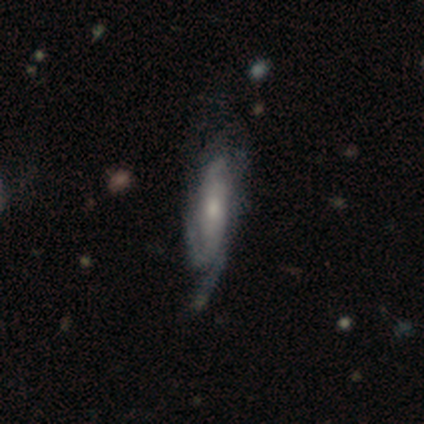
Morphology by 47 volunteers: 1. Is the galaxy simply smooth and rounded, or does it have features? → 81% featured or disk, 17% smooth, 2% star or artifact.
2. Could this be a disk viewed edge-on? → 82% no, 18% yes.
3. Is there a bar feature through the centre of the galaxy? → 58% no, 42% weak, 0% strong.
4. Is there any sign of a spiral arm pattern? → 77% yes, 23% no.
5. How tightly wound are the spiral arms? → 54% tight, 29% medium, 17% loose.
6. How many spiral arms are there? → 50% 2, 33% can't tell, 12% 3, 4% 4, 0% 1, 0% more than 4.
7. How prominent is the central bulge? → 52% moderate, 39% small, 6% large, 3% none, 0% dominant.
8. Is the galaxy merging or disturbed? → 52% none, 28% minor disturbance, 20% major disturbance, 0% merger.